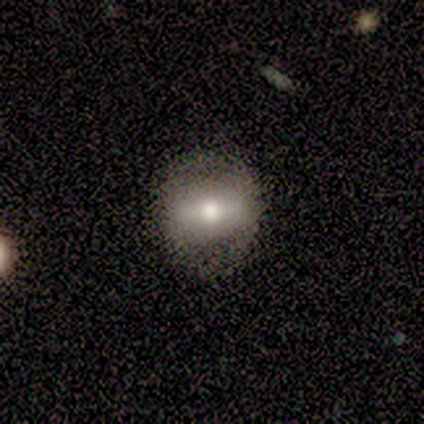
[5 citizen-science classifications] Smooth or featured? smooth (60%)
How rounded? round (100%)
Merging? minor disturbance (50%)